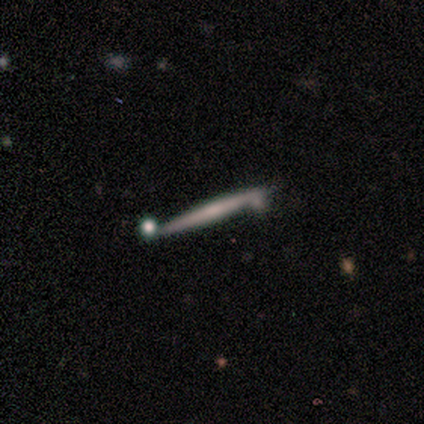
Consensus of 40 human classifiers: featured or disk 55%, smooth 35%, star or artifact 10%. Down the decision tree: edge-on disk — yes (100%); edge-on bulge — none (64%); merging — none (56%).